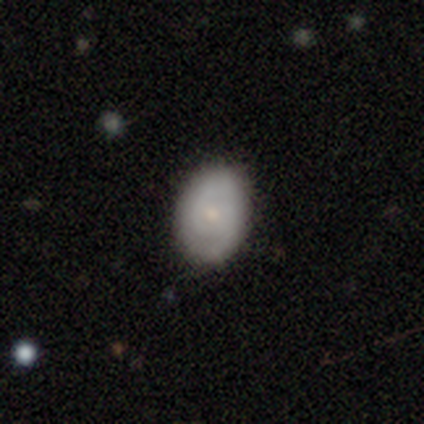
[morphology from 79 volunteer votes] smooth_or_featured: featured or disk (p=0.52) [alt: smooth p=0.46]
disk_edge_on: no (p=1.00)
bar: no (p=0.88) [alt: weak p=0.12]
has_spiral_arms: yes (p=0.76) [alt: no p=0.24]
spiral_winding: tight (p=0.65) [alt: medium p=0.32]
spiral_arm_count: 2 (p=0.61) [alt: can't tell p=0.32]
bulge_size: small (p=0.59) [alt: moderate p=0.37]
merging: none (p=0.39) [alt: minor disturbance p=0.09]